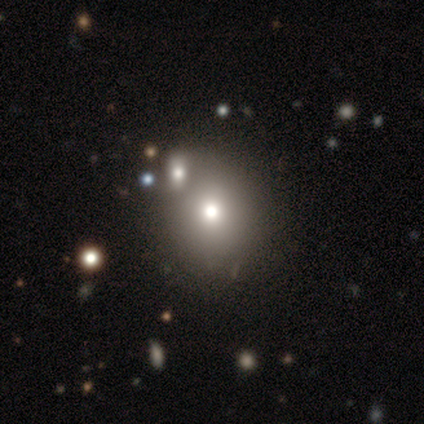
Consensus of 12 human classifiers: Smooth or featured? smooth (83%)
How rounded? round (50%, tied with in between)
Merging? none (75%)